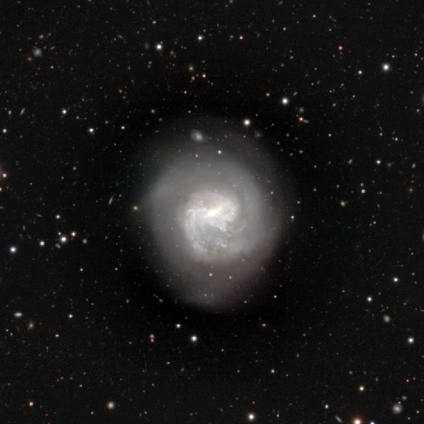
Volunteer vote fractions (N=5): Q: Smooth or featured?
A: featured or disk (80%); runner-up: star or artifact (20%)
Q: Edge-on disk?
A: no (100%)
Q: Bar?
A: strong (50%); tied with: weak (50%)
Q: Spiral arms?
A: yes (100%)
Q: Spiral winding?
A: medium (50%); tied with: loose (50%)
Q: Spiral arm count?
A: can't tell (75%); runner-up: 1 (25%)
Q: Bulge size?
A: large (25%); tied with: moderate (25%); small (25%); none (25%)
Q: Merging?
A: none (75%); runner-up: minor disturbance (25%)